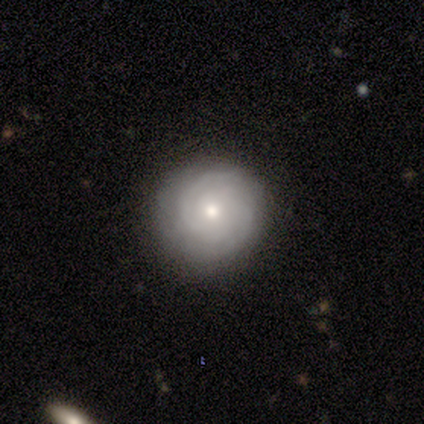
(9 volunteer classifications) A featured or disk galaxy (89%) with no bar (100%), 2 (43%) tight (86%) spiral arms (88%) and a moderate central bulge (50%, tied with small). Merging: none (75%).